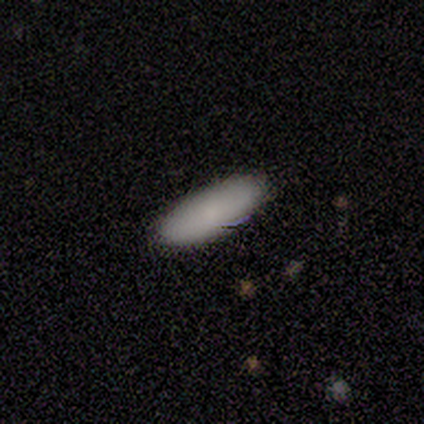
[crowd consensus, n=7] Smooth or featured: smooth — 100%
How rounded: in between — 71% (cigar-shaped — 29%)
Merging: none — 86% (major disturbance — 14%)